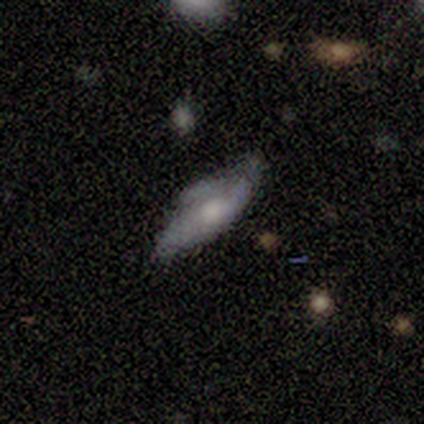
A featured or disk galaxy (60%) viewed edge-on (67%) with a rounded central bulge (100%). Merging: minor disturbance (50%).